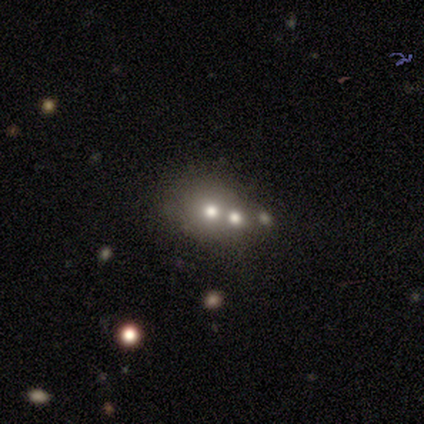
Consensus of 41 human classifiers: Smooth or featured?
  - smooth: 54% *
  - featured or disk: 29%
  - star or artifact: 17%
How rounded?
  - round: 73% *
  - in between: 27%
  - cigar-shaped: 0%
Merging?
  - none: 47% *
  - merger: 35%
  - minor disturbance: 9%
  - major disturbance: 9%